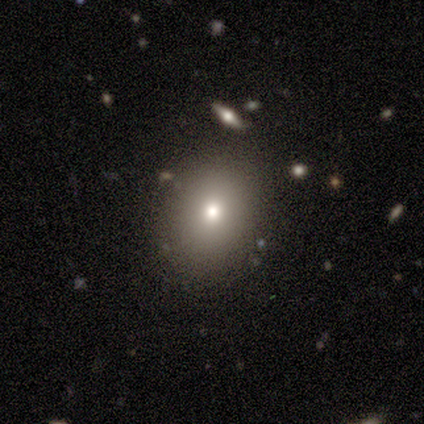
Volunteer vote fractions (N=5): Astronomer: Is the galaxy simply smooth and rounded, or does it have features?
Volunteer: smooth — 60% (runner-up: star or artifact, 40%).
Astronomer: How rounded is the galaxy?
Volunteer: round — 67%.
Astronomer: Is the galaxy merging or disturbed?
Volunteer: none — 100%.